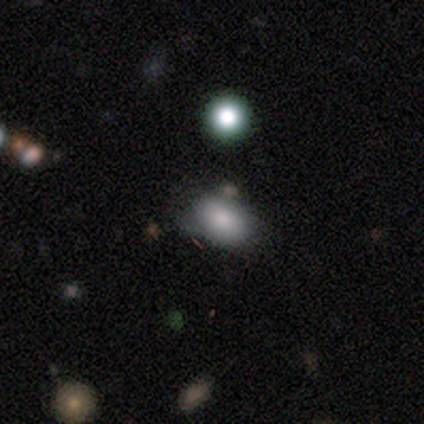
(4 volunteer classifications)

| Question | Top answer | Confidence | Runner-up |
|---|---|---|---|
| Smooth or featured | smooth | 100% | — |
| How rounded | in between | 100% | — |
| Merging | none | 75% | minor disturbance (25%) |